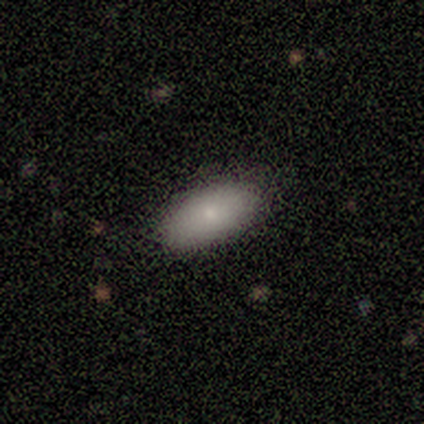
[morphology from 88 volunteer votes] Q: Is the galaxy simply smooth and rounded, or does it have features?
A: smooth — 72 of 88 (82%).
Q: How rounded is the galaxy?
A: in between — 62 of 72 (86%).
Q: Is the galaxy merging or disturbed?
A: none — 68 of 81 (84%).